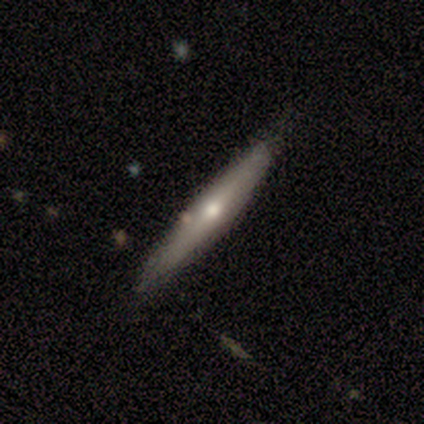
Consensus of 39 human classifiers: A smooth galaxy with no disk features (51%) that is cigar-shaped (100%).

Vote fractions:
- Smooth or featured? smooth: 51% / featured or disk: 41% / star or artifact: 8%
- How rounded? cigar-shaped: 100% / round: 0% / in between: 0%
- Merging? none: 89% / minor disturbance: 11% / major disturbance: 0% / merger: 0%